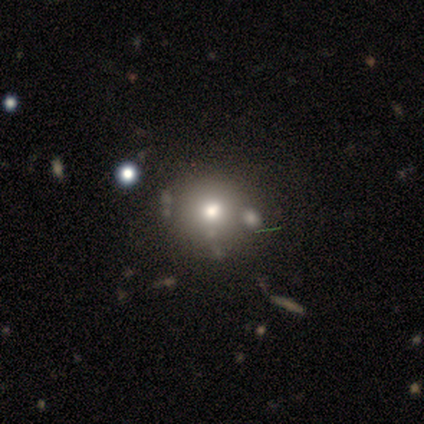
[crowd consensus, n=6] Smooth or featured? smooth (50%, tied with star or artifact)
How rounded? round (100%)
Merging? none (100%)